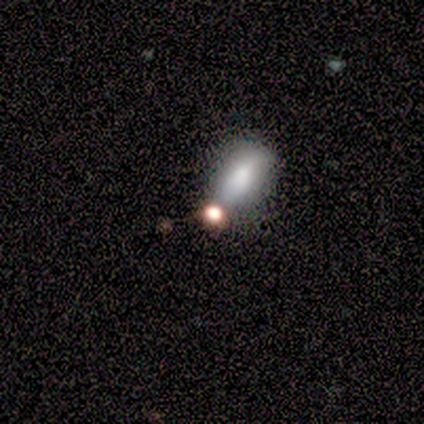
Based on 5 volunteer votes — Q: Smooth or featured?
A: smooth (40%); tied with: featured or disk (40%)
Q: How rounded?
A: in between (100%)
Q: Merging?
A: none (50%); runner-up: minor disturbance (25%)